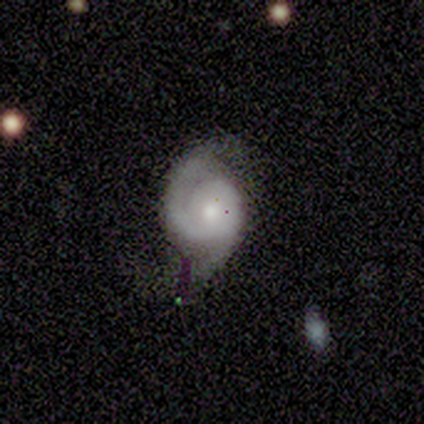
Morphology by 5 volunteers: Overall: featured or disk (100%). Edge-on disk: no (100%). Bar: no (80%). Spiral arms: yes (100%). Spiral arm count: 2 (100%). Spiral winding: tight (60%; medium 40%). Bulge size: moderate (80%). Merging: none (60%; minor disturbance 40%).